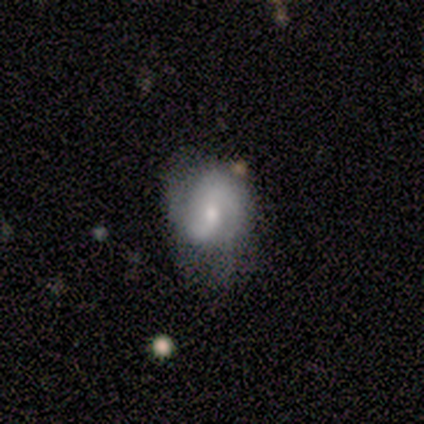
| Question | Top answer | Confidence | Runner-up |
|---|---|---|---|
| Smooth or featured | featured or disk | 75% | smooth (25%) |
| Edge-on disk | no | 100% | — |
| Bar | no | 100% | — |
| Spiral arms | yes | 100% | — |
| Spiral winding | medium | 100% | — |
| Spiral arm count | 2 | 100% | — |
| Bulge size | small | 67% | moderate (33%) |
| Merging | none | 75% | major disturbance (25%) |